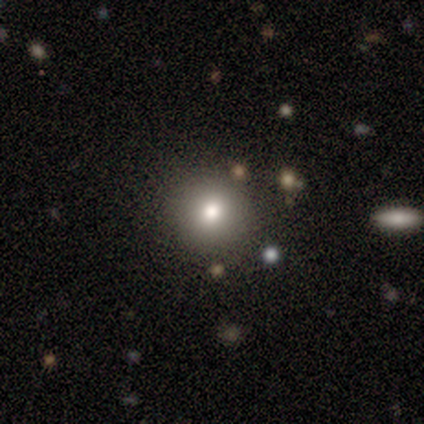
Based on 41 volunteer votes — Smooth or featured?
  - smooth: 83% *
  - star or artifact: 15%
  - featured or disk: 2%
How rounded?
  - round: 97% *
  - cigar-shaped: 3%
  - in between: 0%
Merging?
  - none: 91% *
  - minor disturbance: 9%
  - major disturbance: 0%
  - merger: 0%